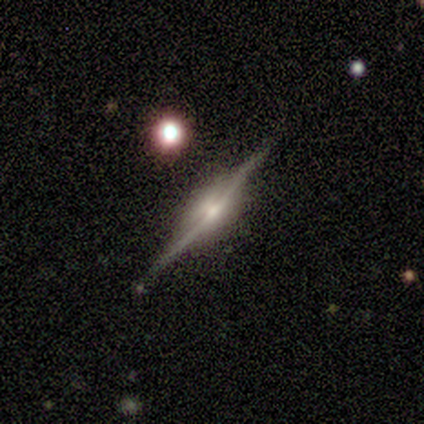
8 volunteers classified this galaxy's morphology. featured or disk 88%, star or artifact 12%, smooth 0%. Down the decision tree: edge-on disk — yes (100%); edge-on bulge — rounded (71%); merging — none (86%).